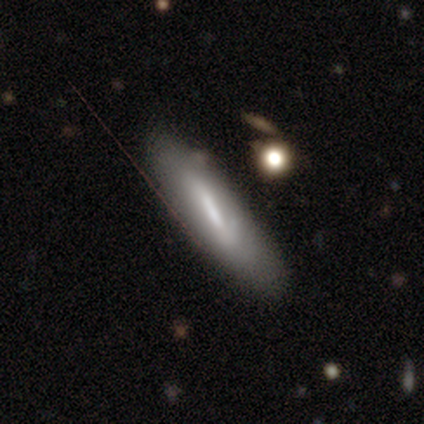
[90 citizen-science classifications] Smooth or featured?
  - smooth: 48% *
  - featured or disk: 42%
  - star or artifact: 10%
How rounded?
  - cigar-shaped: 91% *
  - in between: 9%
  - round: 0%
Merging?
  - none: 65% *
  - minor disturbance: 26%
  - merger: 7%
  - major disturbance: 1%